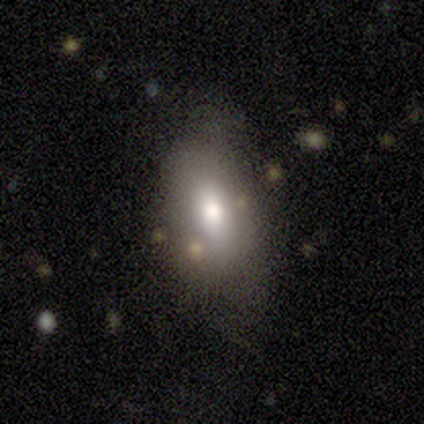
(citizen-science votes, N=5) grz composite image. It shows a smooth galaxy with no disk features (80%) that is in between round and cigar-shaped (75%). Merging: minor disturbance (60%).